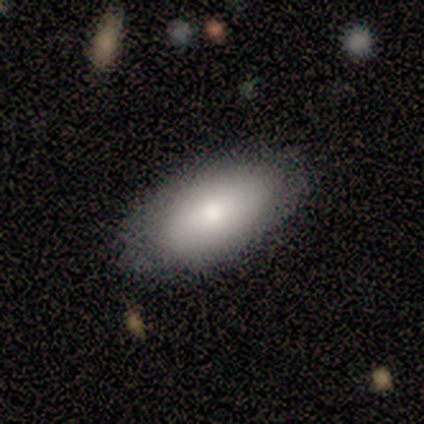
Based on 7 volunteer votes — Volunteers were most divided on "merging": none: 86%, minor disturbance: 14%, major disturbance: 0%, merger: 0%. More confident: smooth or featured — smooth (100%); how rounded — in between (100%).